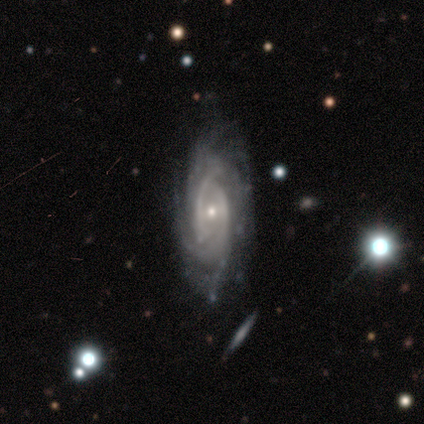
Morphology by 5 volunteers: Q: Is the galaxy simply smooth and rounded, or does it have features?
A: featured or disk — 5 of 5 (100%).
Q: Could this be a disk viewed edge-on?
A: no — 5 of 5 (100%).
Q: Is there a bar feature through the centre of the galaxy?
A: weak — 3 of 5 (60%).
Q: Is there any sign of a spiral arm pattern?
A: yes — 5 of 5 (100%).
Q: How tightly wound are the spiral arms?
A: tight — 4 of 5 (80%).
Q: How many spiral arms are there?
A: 2 — 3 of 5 (60%).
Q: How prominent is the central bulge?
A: moderate — 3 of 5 (60%).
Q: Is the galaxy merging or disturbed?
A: none — 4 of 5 (80%).